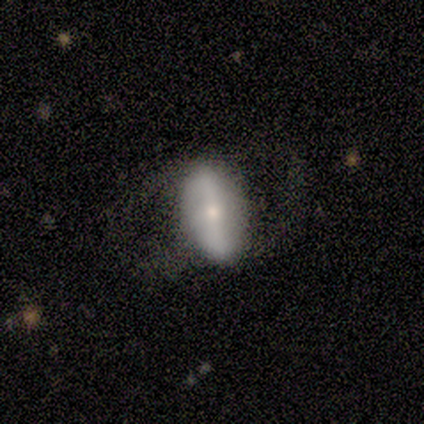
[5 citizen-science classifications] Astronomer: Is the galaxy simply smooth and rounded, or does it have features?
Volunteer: smooth — 100%.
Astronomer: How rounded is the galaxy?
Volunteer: in between — 80%.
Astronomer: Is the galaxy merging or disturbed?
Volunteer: none — 80%.